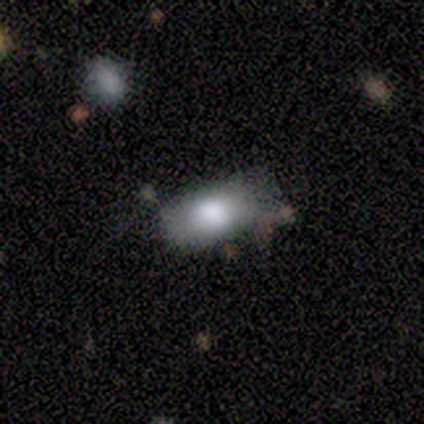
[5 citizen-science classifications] Morphology: type=smooth (80%); roundness=in between (100%); merging=none (50%, tied with minor disturbance).